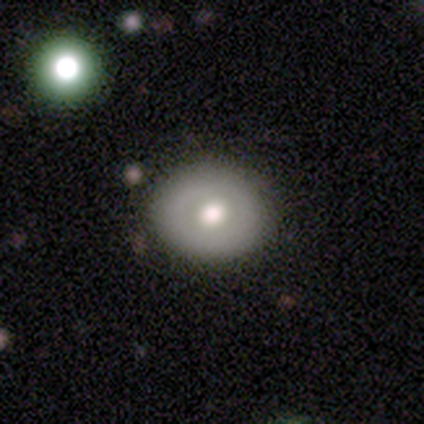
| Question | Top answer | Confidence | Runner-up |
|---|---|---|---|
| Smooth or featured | smooth | 67% | featured or disk (33%) |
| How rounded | round | 75% | in between (25%) |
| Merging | none | 100% | — |